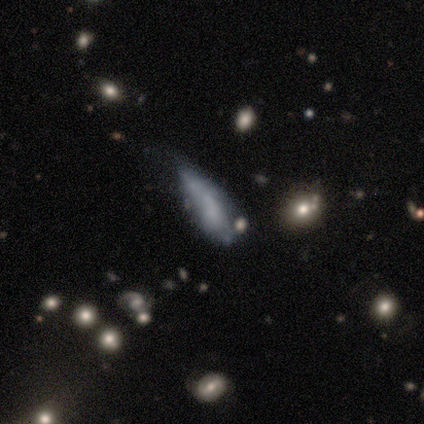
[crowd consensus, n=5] Smooth or featured? 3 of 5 (60%) said smooth. How rounded? 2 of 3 (67%) said cigar-shaped. Merging? 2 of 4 (50%) said none.